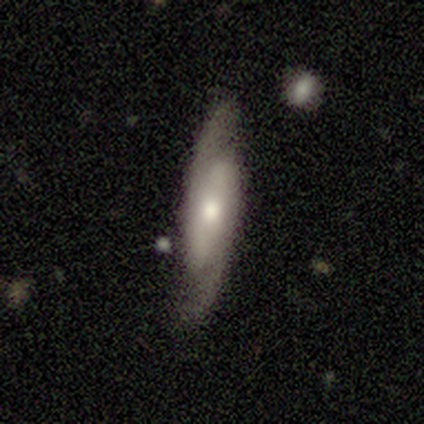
Volunteers were most divided on "bar" (3-way tie): strong: 33%, weak: 33%, no: 33%. More confident: spiral arms — yes (100%); spiral arm count — 2 (93%); merging — none (74%); bulge size — moderate (73%); smooth or featured — featured or disk (64%); edge-on disk — no (60%); spiral winding — medium (60%).